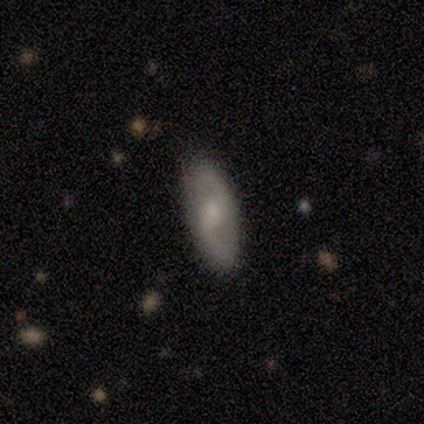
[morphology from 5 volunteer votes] Q: Smooth or featured?
A: featured or disk (80%); runner-up: star or artifact (20%)
Q: Edge-on disk?
A: no (75%); runner-up: yes (25%)
Q: Bar?
A: weak (67%); runner-up: strong (33%)
Q: Spiral arms?
A: yes (100%)
Q: Spiral winding?
A: tight (33%); tied with: medium (33%); loose (33%)
Q: Spiral arm count?
A: 2 (100%)
Q: Bulge size?
A: moderate (67%); runner-up: small (33%)
Q: Merging?
A: none (75%); runner-up: minor disturbance (25%)